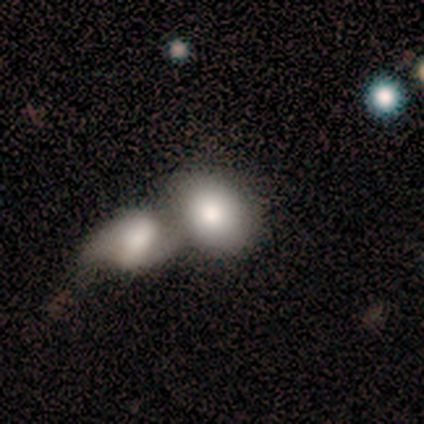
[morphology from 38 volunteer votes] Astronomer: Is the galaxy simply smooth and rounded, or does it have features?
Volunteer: smooth — 87%.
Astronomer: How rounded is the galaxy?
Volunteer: in between — 58% (runner-up: round, 39%).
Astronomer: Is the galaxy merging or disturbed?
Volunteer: merger — 84%.